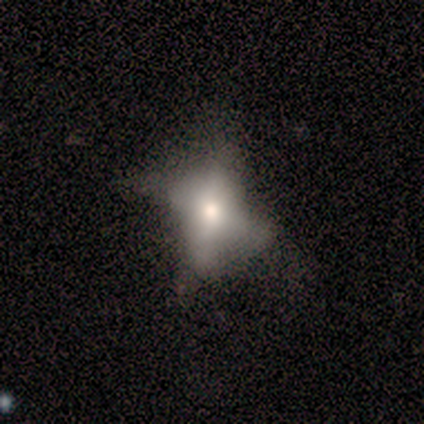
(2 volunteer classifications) This is clearly a featured or disk galaxy (100%). It is possibly viewed edge-on (50%, tied with no). Edge-on bulge: clearly rounded (100%). Merging: clearly none (100%).